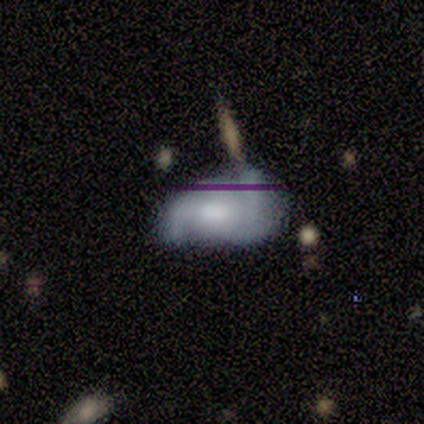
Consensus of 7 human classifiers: Overall: smooth (43%, tied with featured or disk). How rounded: in between (100%). Merging: none (83%).